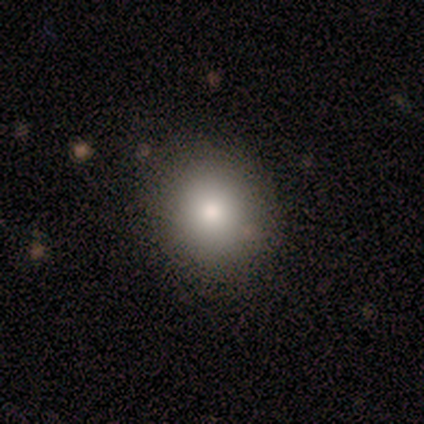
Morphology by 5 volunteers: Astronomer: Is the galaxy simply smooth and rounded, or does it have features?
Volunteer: smooth — 100%.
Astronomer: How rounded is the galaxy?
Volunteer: round — 80%.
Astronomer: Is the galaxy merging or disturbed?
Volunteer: none — 100%.